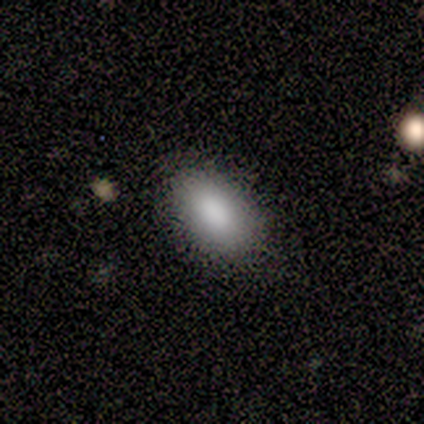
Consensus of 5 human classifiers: Overall: smooth (100%). How rounded: in between (100%). Merging: none (80%).